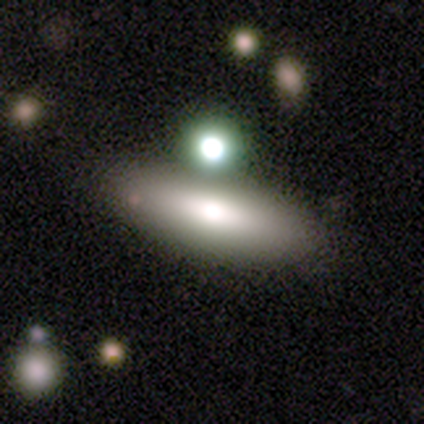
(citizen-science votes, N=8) Smooth or featured: smooth — 75% (featured or disk — 25%)
How rounded: cigar-shaped — 67% (in between — 33%)
Merging: none — 88% (merger — 12%)